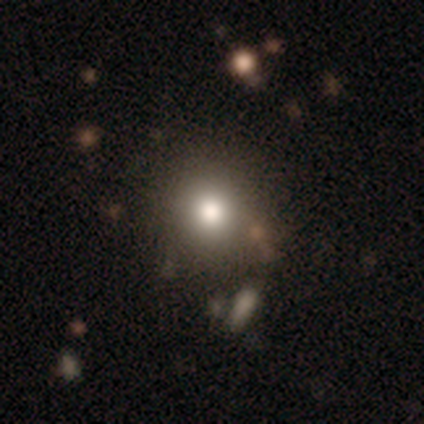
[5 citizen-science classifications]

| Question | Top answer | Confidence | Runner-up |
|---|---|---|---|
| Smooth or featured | smooth | 60% | star or artifact (40%) |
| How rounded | round | 100% | — |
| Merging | none | 67% | minor disturbance (33%) |